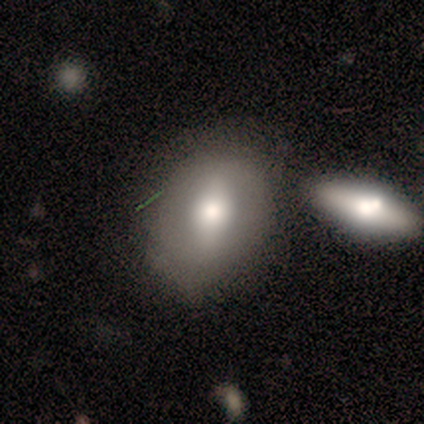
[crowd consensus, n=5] Smooth or featured?
  - smooth: 100% *
  - featured or disk: 0%
  - star or artifact: 0%
How rounded?
  - in between: 80% *
  - round: 20%
  - cigar-shaped: 0%
Merging?
  - none: 80% *
  - minor disturbance: 20%
  - major disturbance: 0%
  - merger: 0%